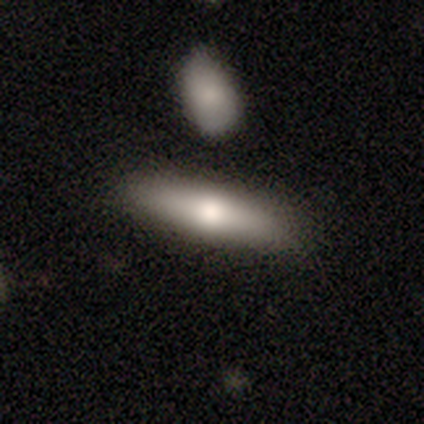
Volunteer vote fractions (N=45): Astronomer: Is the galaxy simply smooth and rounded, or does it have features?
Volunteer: smooth — 69%.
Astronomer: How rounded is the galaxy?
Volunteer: cigar-shaped — 84%.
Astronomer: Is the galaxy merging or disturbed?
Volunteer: none — 84%.